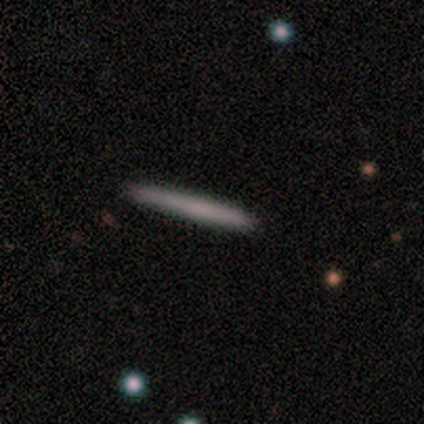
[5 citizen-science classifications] smooth-or-featured: featured or disk: 60% | smooth: 20% | star or artifact: 20%
  disk-edge-on: yes: 100% | no: 0%
    edge-on-bulge: none: 67% | rounded: 33% | boxy: 0%
  merging: none: 75% | merger: 25% | minor disturbance: 0% | major disturbance: 0%